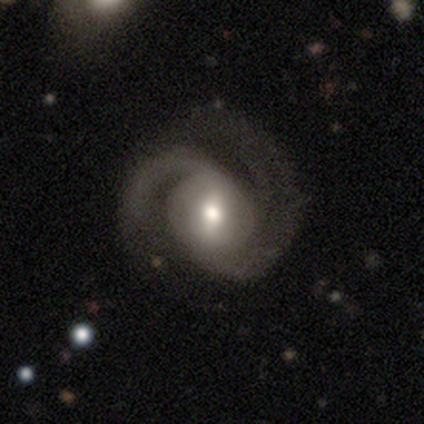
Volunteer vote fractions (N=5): Smooth or featured? 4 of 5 (80%) said featured or disk. Edge-on disk? 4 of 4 (100%) said no. Bar? 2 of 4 (50%, tied with no) said weak. Spiral arms? 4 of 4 (100%) said yes. Spiral winding? 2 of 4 (50%) said medium. Spiral arm count? 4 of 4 (100%) said 2. Bulge size? 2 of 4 (50%) said moderate. Merging? 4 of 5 (80%) said none.